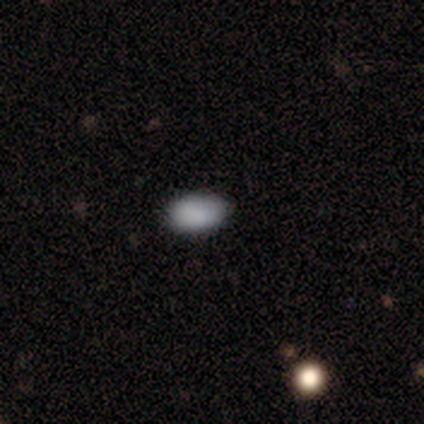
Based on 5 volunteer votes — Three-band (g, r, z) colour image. It shows a smooth galaxy with no disk features (60%) that is in between round and cigar-shaped (100%). Merging: none (75%).